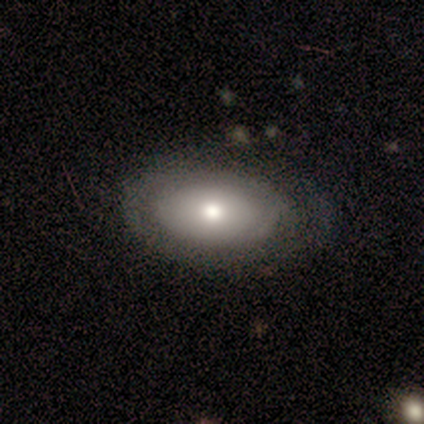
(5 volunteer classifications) Smooth or featured: smooth — 80% (featured or disk — 20%)
How rounded: in between — 100%
Merging: none — 60% (minor disturbance — 40%)